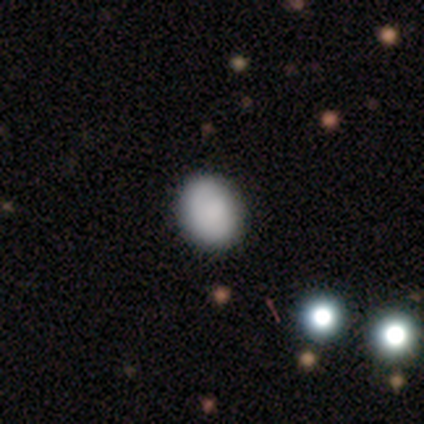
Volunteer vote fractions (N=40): smooth-or-featured: smooth: 75% | featured or disk: 22% | star or artifact: 2%
  how-rounded: in between: 57% | round: 43% | cigar-shaped: 0%
  merging: none: 56% | minor disturbance: 10% | major disturbance: 5% | merger: 0%